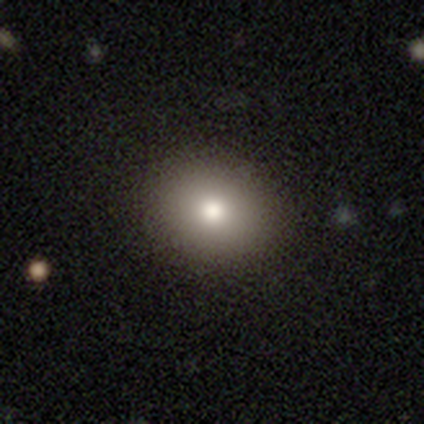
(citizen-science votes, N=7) Smooth or featured? 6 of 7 (86%) said smooth. How rounded? 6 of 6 (100%) said round. Merging? 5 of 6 (83%) said none.